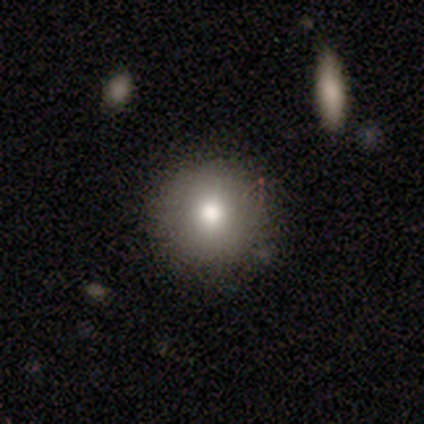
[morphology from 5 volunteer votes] Smooth or featured: smooth — 80% (star or artifact — 20%)
How rounded: round — 100%
Merging: none — 100%